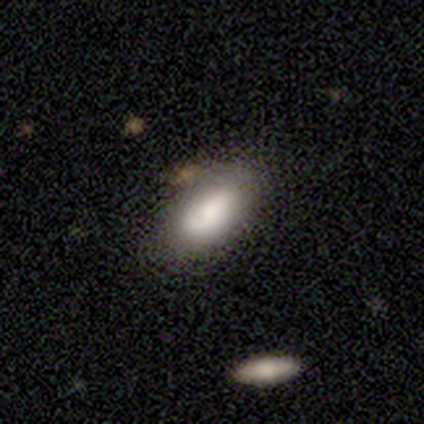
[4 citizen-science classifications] Smooth or featured: smooth — 50% (tied with star or artifact — 50%)
How rounded: in between — 100%
Merging: none — 100%